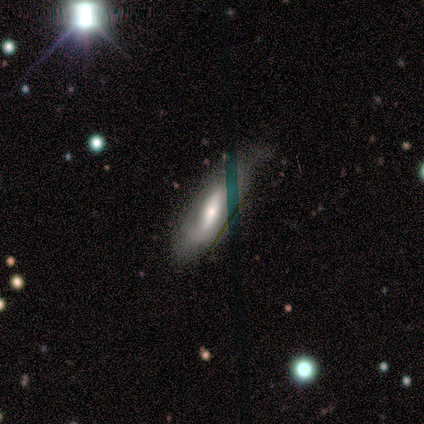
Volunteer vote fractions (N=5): A featured or disk galaxy (60%) with a strong bar (33%, tied with weak and no), 2 (50%, tied with can't tell) loose (100%) spiral arms (67%) and a moderate central bulge (67%).

Vote fractions:
- Smooth or featured? featured or disk: 60% / smooth: 40% / star or artifact: 0%
- Edge-on disk? no: 100% / yes: 0%
- Bar? strong: 33% (tied) / weak: 33% (tied) / no: 33% (tied)
- Spiral arms? yes: 67% / no: 33%
- Spiral winding? loose: 100% / tight: 0% / medium: 0%
- Spiral arm count? 2: 50% (tied) / can't tell: 50% (tied) / 1: 0% / 3: 0% / 4: 0% / more than 4: 0%
- Bulge size? moderate: 67% / small: 33% / dominant: 0% / large: 0% / none: 0%
- Merging? none: 60% / minor disturbance: 40% / major disturbance: 0% / merger: 0%